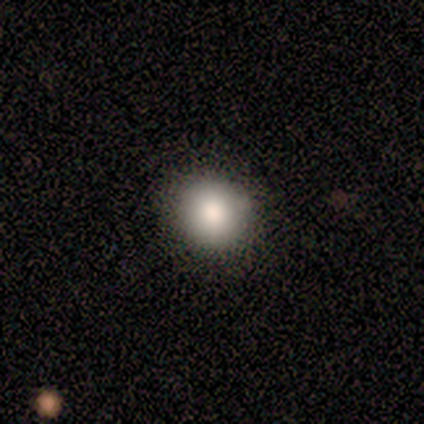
Smooth or featured?
  - smooth: 100% *
  - featured or disk: 0%
  - star or artifact: 0%
How rounded?
  - round: 100% *
  - in between: 0%
  - cigar-shaped: 0%
Merging?
  - none: 100% *
  - minor disturbance: 0%
  - major disturbance: 0%
  - merger: 0%